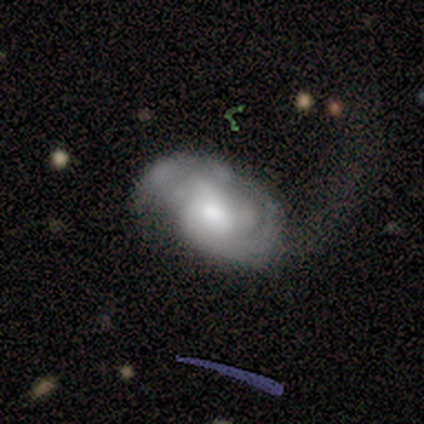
Morphology: type=featured or disk (57%); edge-on=no (100%); bar=strong (50%, tied with no); spiral arms=yes (100%); winding=tight (75%); arm count=3 (50%); bulge=moderate (75%); merging=major disturbance (43%).